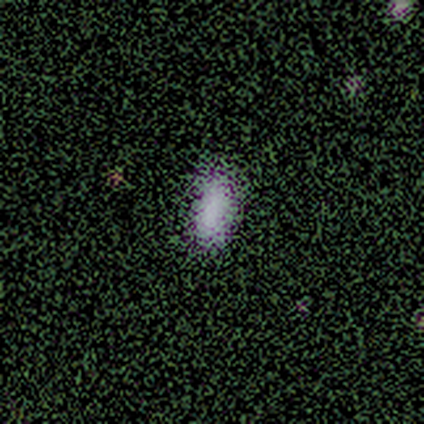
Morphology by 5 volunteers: This appears to be a smooth galaxy with no disk features (80%) that is in between round and cigar-shaped (75%). Merging: none (100%).